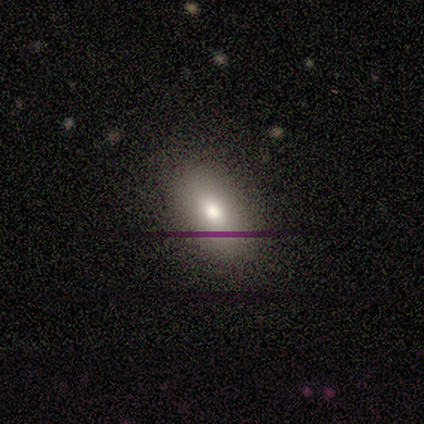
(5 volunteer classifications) A smooth galaxy with no disk features (80%) that is in between round and cigar-shaped (100%). Merging: none (100%).